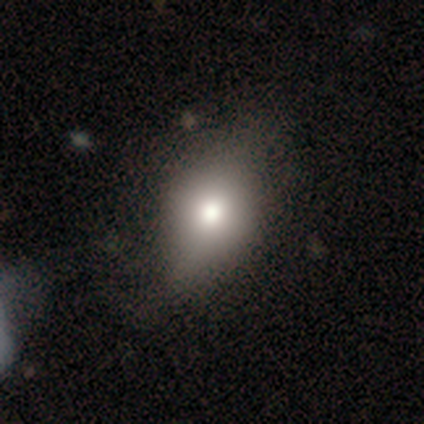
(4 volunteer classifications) Q: Smooth or featured?
A: smooth (50%); runner-up: featured or disk (25%)
Q: How rounded?
A: round (50%); tied with: in between (50%)
Q: Merging?
A: minor disturbance (67%); runner-up: none (33%)